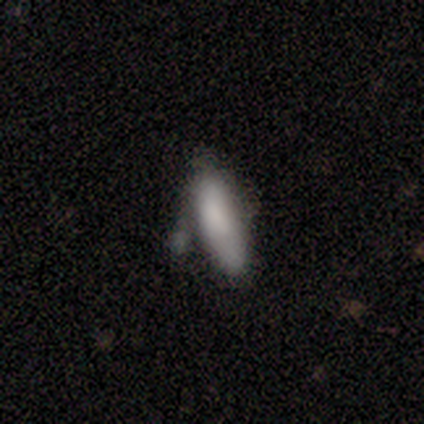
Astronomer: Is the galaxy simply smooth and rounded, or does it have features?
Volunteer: smooth — 89%.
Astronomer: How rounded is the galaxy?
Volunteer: in between — 88%.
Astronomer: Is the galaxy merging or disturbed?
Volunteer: minor disturbance — 50% (runner-up: none, 38%).